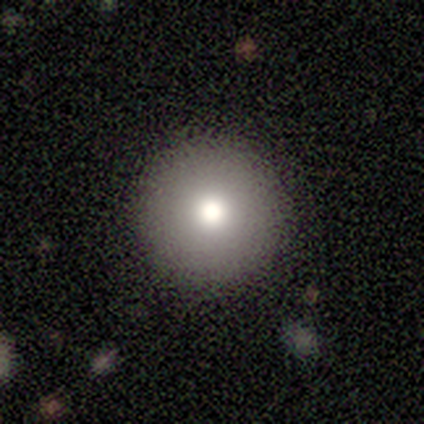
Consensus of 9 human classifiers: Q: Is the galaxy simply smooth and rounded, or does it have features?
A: smooth — 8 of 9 (89%).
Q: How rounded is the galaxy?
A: round — 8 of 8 (100%).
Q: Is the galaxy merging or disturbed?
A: none — 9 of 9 (100%).